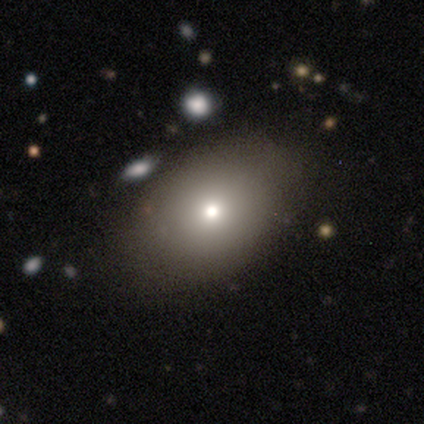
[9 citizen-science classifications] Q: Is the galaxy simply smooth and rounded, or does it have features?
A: smooth — 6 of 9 (67%).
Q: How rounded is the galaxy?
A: in between — 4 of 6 (67%).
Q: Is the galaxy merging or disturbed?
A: none — 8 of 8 (100%).